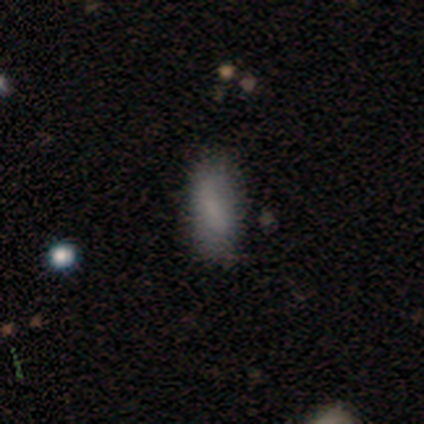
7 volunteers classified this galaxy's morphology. Smooth or featured? smooth (86%)
How rounded? in between (100%)
Merging? none (86%)